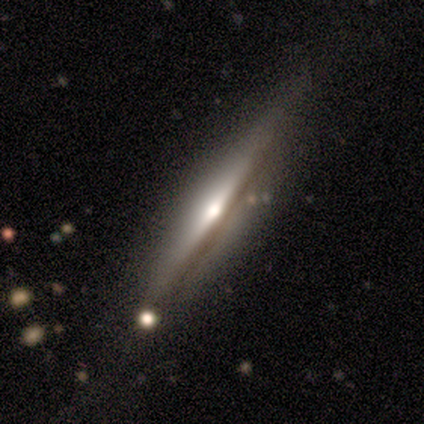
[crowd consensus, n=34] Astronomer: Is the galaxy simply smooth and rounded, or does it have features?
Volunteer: featured or disk — 85%.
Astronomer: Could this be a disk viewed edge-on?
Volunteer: yes — 100%.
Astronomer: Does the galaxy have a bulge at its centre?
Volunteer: rounded — 83%.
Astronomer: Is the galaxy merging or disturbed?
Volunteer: none — 69%.